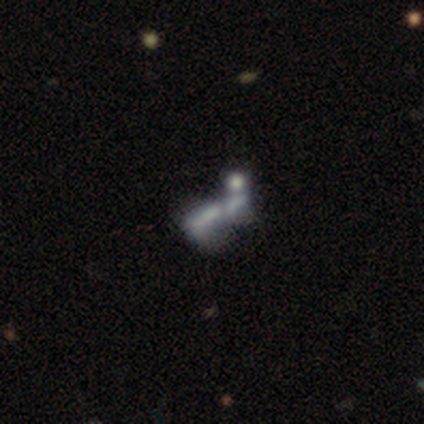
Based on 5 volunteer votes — smooth_or_featured: featured or disk (p=0.80) [alt: smooth p=0.20]
disk_edge_on: no (p=1.00)
bar: no (p=1.00)
has_spiral_arms: no (p=1.00)
bulge_size: none (p=1.00)
merging: merger (p=0.60) [alt: none p=0.20]